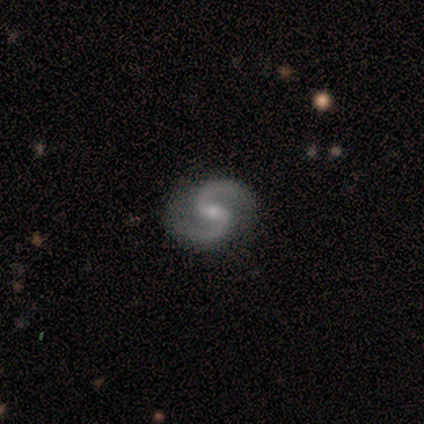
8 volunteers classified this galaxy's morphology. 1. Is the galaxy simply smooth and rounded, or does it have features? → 88% featured or disk, 12% smooth, 0% star or artifact.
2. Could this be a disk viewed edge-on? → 100% no, 0% yes.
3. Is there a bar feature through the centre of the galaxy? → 57% weak, 29% strong, 14% no.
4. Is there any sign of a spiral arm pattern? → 100% yes, 0% no.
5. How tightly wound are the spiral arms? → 71% medium, 29% loose, 0% tight.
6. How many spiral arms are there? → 100% 2, 0% 1, 0% 3, 0% 4, 0% more than 4, 0% can't tell.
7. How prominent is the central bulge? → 86% small, 14% moderate, 0% dominant, 0% large, 0% none.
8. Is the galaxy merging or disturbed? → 88% none, 12% minor disturbance, 0% major disturbance, 0% merger.